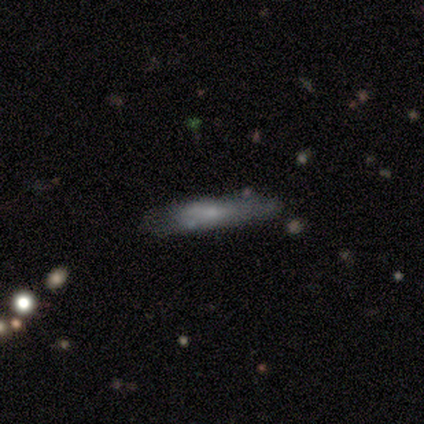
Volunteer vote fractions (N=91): smooth 65%, featured or disk 29%, star or artifact 7%. Down the decision tree: how rounded — cigar-shaped (85%); merging — none (60%).